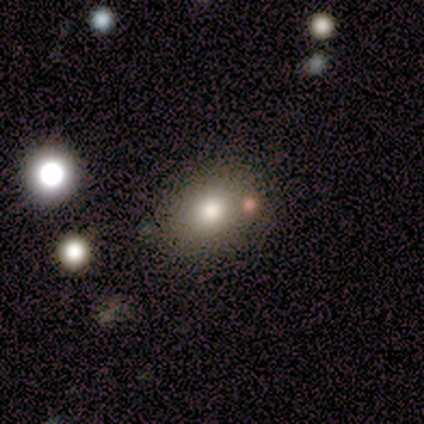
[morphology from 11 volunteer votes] type=smooth (73%); roundness=in between (75%); merging=none (89%).